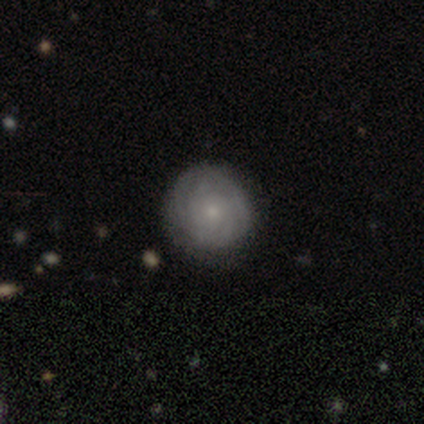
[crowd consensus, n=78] Q: Smooth or featured?
A: featured or disk (58%); runner-up: smooth (36%)
Q: Edge-on disk?
A: no (93%); runner-up: yes (7%)
Q: Bar?
A: no (90%); runner-up: weak (7%)
Q: Spiral arms?
A: yes (86%); runner-up: no (14%)
Q: Spiral winding?
A: tight (81%); runner-up: medium (11%)
Q: Spiral arm count?
A: can't tell (69%); runner-up: 4 (14%)
Q: Bulge size?
A: small (79%); runner-up: moderate (17%)
Q: Merging?
A: none (53%); runner-up: minor disturbance (5%)